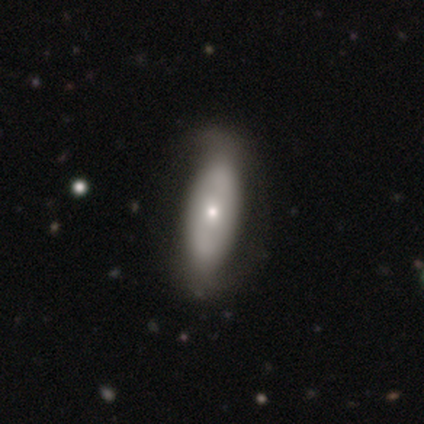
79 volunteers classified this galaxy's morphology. This appears to be a smooth galaxy with no disk features (53%) that is in between round and cigar-shaped (71%). Merging: none (31%).